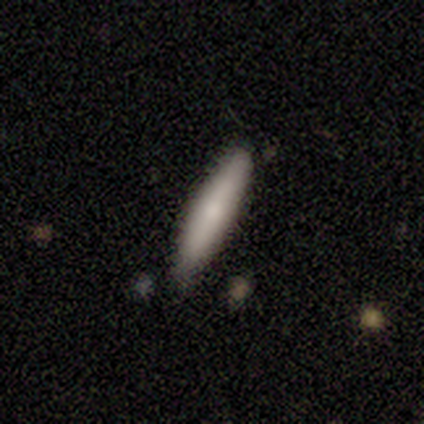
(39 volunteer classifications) Morphology: type=smooth (82%); roundness=cigar-shaped (88%); merging=none (87%).